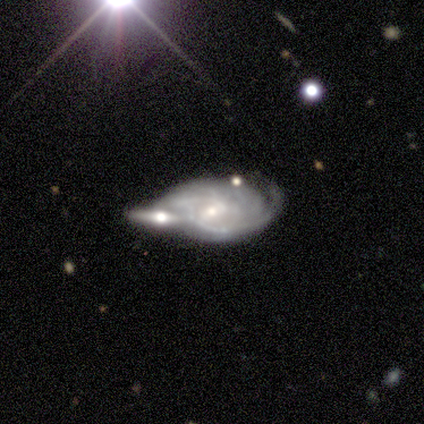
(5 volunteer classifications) featured or disk 100%, smooth 0%, star or artifact 0%. Down the decision tree: edge-on disk — no (80%); bar — weak (50%, tied with no); spiral arms — yes (100%); spiral arm count — 2 (75%); spiral winding — tight (50%, tied with medium); bulge size — small (75%); merging — merger (60%).